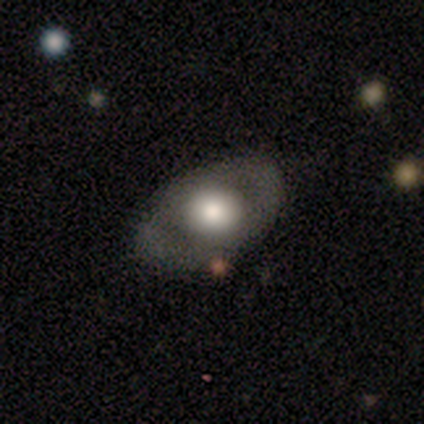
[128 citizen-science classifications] Smooth or featured? 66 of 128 (52%) said smooth. How rounded? 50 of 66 (76%) said in between. Merging? 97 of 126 (77%) said none.